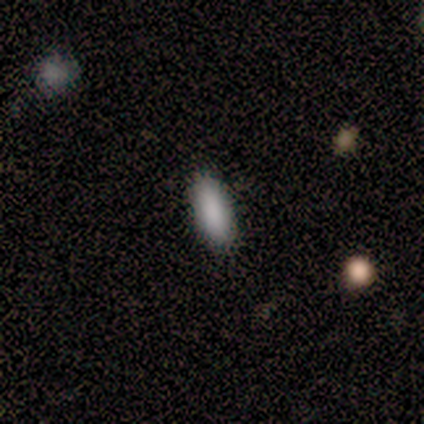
Morphology: type=smooth (100%); roundness=in between (80%); merging=none (100%).